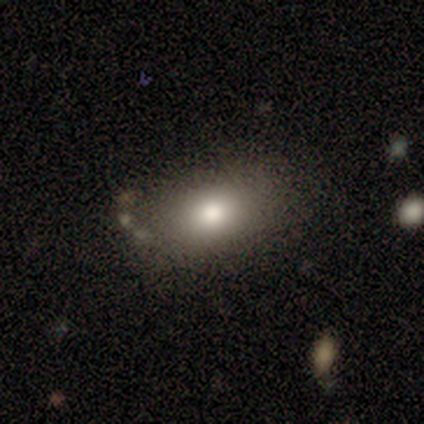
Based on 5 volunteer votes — Smooth or featured?
  - smooth: 80% *
  - featured or disk: 20%
  - star or artifact: 0%
How rounded?
  - round: 50% * (tied)
  - in between: 50% * (tied)
  - cigar-shaped: 0%
Merging?
  - none: 100% *
  - minor disturbance: 0%
  - major disturbance: 0%
  - merger: 0%